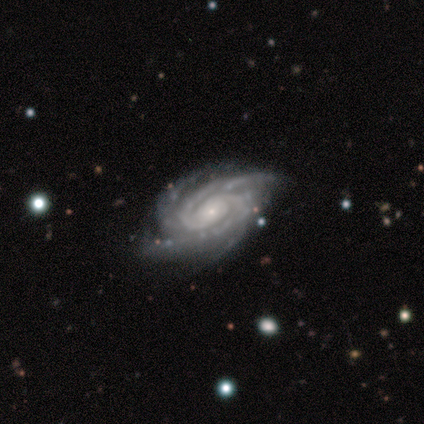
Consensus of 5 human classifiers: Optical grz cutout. It shows a featured or disk galaxy (100%) with no bar (60%), 2 (40%, tied with 3) tight (80%) spiral arms (100%) and a small central bulge (80%). Merging: none (100%).